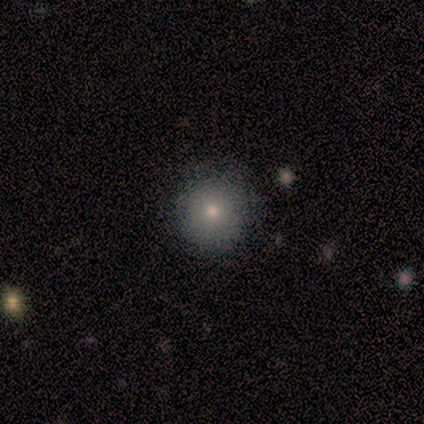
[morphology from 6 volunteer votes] Smooth or featured? 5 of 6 (83%) said smooth. How rounded? 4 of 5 (80%) said round. Merging? 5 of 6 (83%) said none.